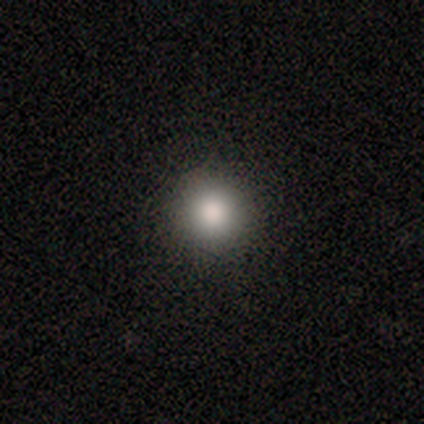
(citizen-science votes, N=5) Smooth or featured? 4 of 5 (80%) said smooth. How rounded? 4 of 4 (100%) said round. Merging? 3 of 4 (75%) said none.